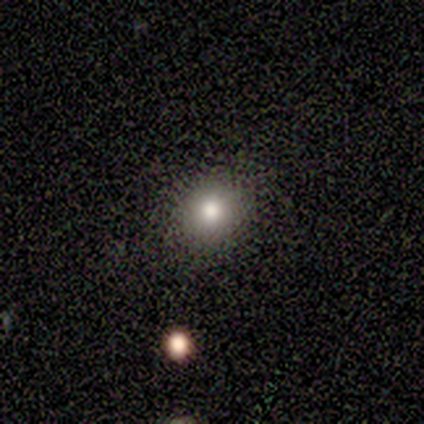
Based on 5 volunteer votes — A smooth galaxy with no disk features (60%) that is round (100%). Merging: none (100%).